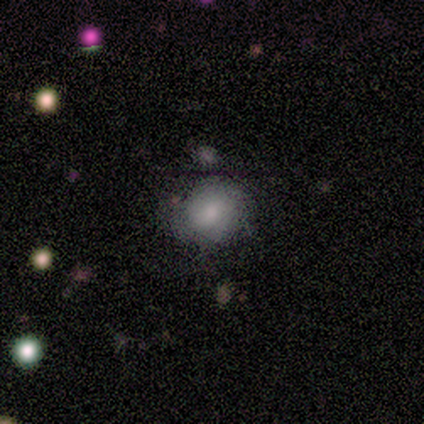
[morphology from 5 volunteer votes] Volunteers were most divided on "merging": none: 60%, major disturbance: 20%, merger: 20%, minor disturbance: 0%. More confident: smooth or featured — smooth (80%); how rounded — round (75%).